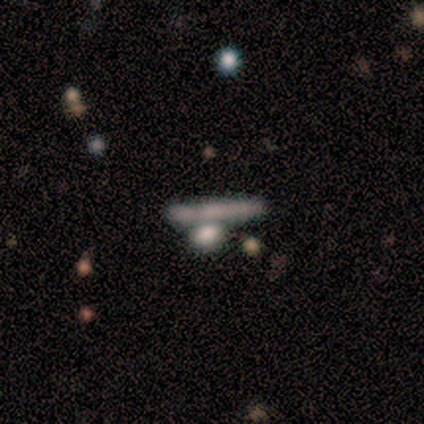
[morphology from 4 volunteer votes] Smooth or featured: smooth — 75% (featured or disk — 25%)
How rounded: cigar-shaped — 100%
Merging: merger — 100%